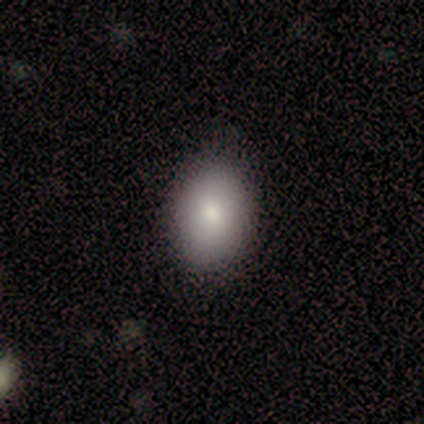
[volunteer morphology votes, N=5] Q: Smooth or featured?
A: smooth (80%); runner-up: featured or disk (20%)
Q: How rounded?
A: in between (100%)
Q: Merging?
A: none (100%)